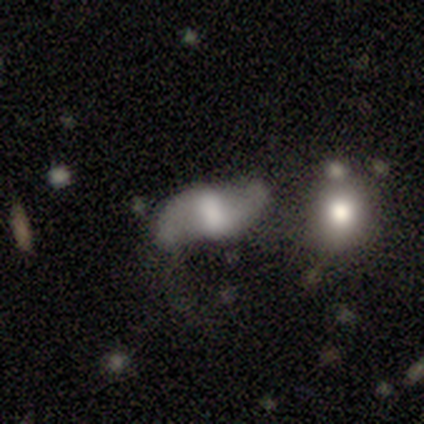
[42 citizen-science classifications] Smooth or featured? 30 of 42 (71%) said featured or disk. Edge-on disk? 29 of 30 (97%) said no. Bar? 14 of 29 (48%) said weak. Spiral arms? 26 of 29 (90%) said yes. Spiral winding? 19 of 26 (73%) said loose. Spiral arm count? 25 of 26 (96%) said 2. Bulge size? 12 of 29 (41%) said moderate. Merging? 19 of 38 (50%) said none.